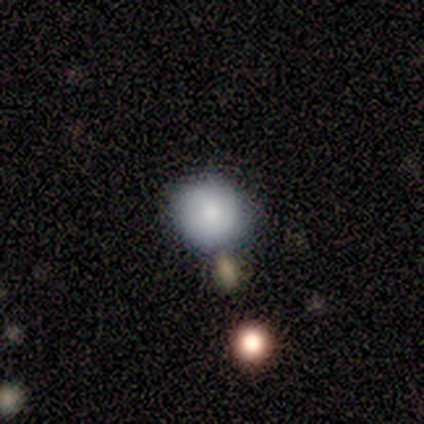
smooth 100%, featured or disk 0%, star or artifact 0%. Down the decision tree: how rounded — round (100%); merging — none (60%).